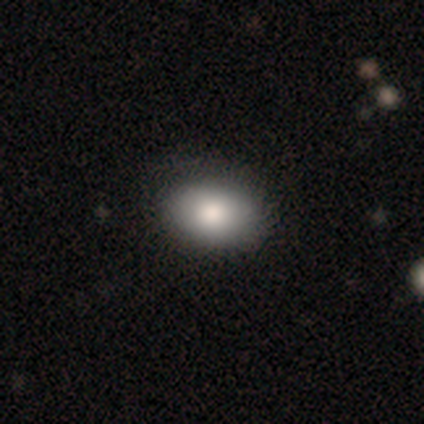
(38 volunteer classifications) smooth 82%, featured or disk 11%, star or artifact 8%. Down the decision tree: how rounded — in between (77%); merging — none (69%).